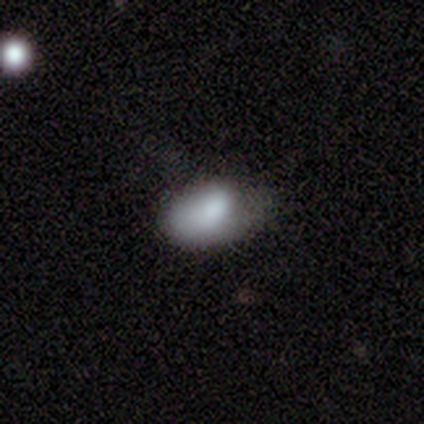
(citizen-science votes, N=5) Q: Smooth or featured?
A: smooth (80%); runner-up: star or artifact (20%)
Q: How rounded?
A: in between (100%)
Q: Merging?
A: major disturbance (75%); runner-up: minor disturbance (25%)